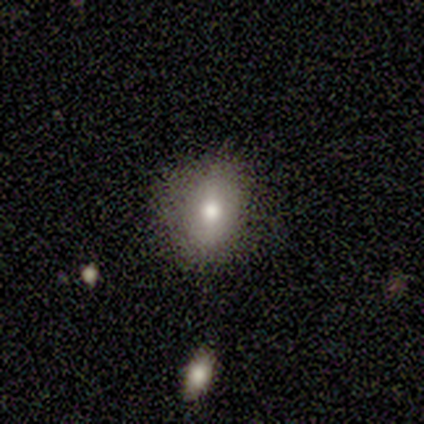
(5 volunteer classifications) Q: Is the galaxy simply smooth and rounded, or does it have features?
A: smooth — 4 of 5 (80%).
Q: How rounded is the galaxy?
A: in between — 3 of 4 (75%).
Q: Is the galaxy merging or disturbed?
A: none — 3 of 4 (75%).